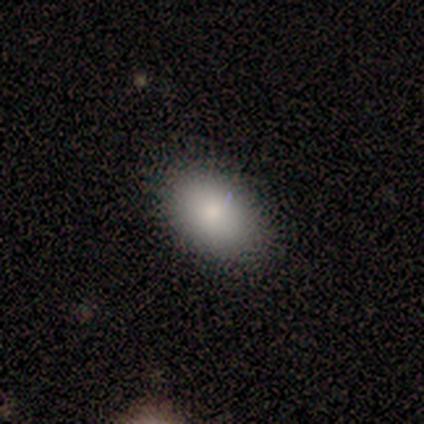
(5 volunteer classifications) This appears to be a smooth galaxy with no disk features (60%) that is in between round and cigar-shaped (100%). Merging: none (100%).